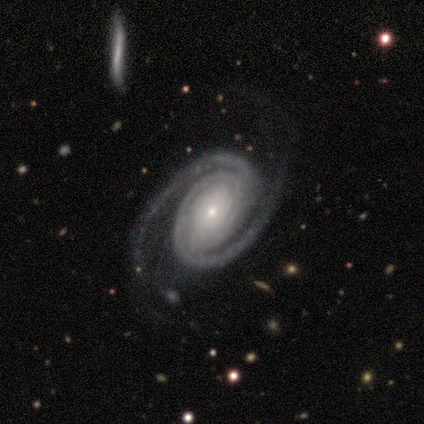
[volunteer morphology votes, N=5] Volunteers were most divided on "bar": no: 80%, weak: 20%, strong: 0%. More confident: smooth or featured — featured or disk (100%); edge-on disk — no (100%); spiral arms — yes (100%); bulge size — small (100%); spiral winding — tight (80%); spiral arm count — 2 (80%); merging — none (80%).